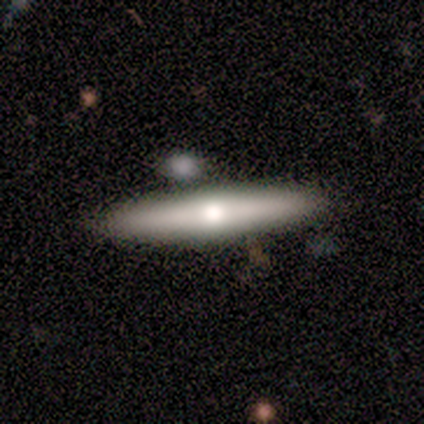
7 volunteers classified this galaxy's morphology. Overall: featured or disk (100%). Edge-on disk: yes (100%). Edge-on bulge: rounded (100%). Merging: none (100%).